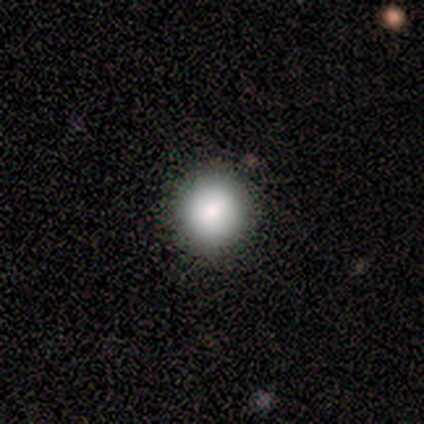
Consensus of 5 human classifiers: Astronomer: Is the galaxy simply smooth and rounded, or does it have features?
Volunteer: smooth — 60%.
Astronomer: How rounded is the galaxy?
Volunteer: round — 100%.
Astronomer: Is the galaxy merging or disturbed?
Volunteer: none — 100%.